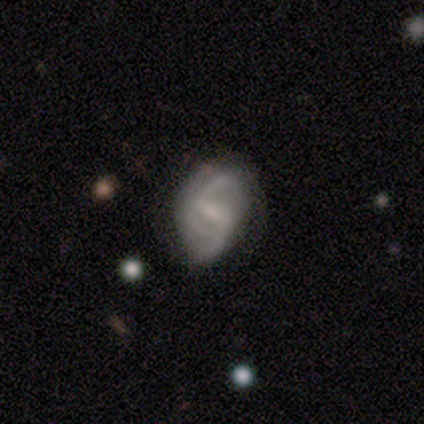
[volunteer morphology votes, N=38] This is clearly a featured or disk galaxy (89%). It is clearly not viewed edge-on (97%). Bar: likely weak (64%). Spiral arm pattern: clearly yes (100%). Spiral arm count: possibly 2 (55%). Spiral winding: possibly loose (52%). Central bulge: likely small (70%). Merging: possibly none (50%).